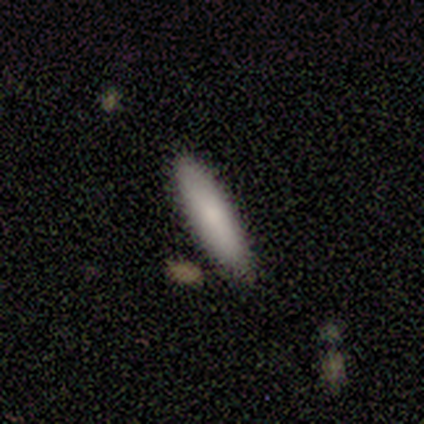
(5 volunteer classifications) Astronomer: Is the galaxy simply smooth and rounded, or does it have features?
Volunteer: smooth — 100%.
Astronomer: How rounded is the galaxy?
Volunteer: cigar-shaped — 80%.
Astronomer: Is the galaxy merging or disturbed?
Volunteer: none — 80%.